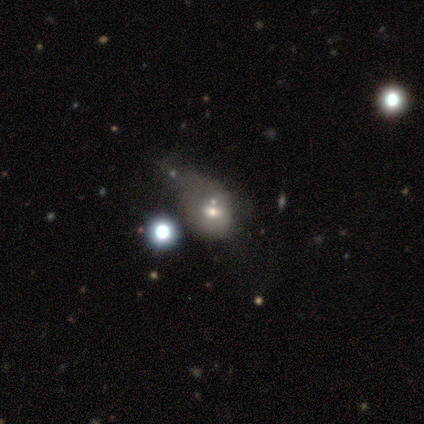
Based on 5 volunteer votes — Smooth or featured?
  - smooth: 60% *
  - star or artifact: 40%
  - featured or disk: 0%
How rounded?
  - round: 67% *
  - in between: 33%
  - cigar-shaped: 0%
Merging?
  - none: 33% * (tied)
  - minor disturbance: 33% * (tied)
  - major disturbance: 33% * (tied)
  - merger: 0%